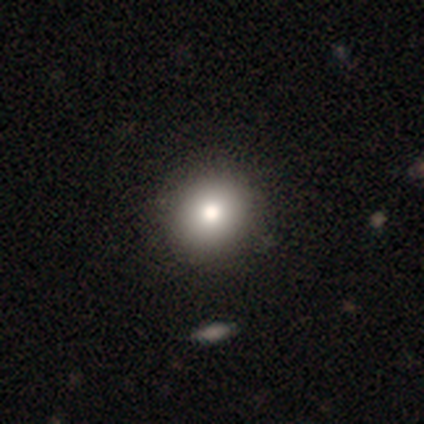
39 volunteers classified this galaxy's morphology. Smooth or featured: smooth — 85% (featured or disk — 8%)
How rounded: round — 97% (in between — 3%)
Merging: none — 69% (merger — 6%)